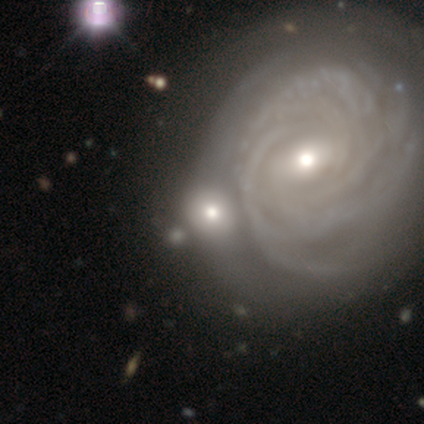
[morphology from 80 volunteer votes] Smooth or featured? 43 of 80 (54%) said featured or disk. Edge-on disk? 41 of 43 (95%) said no. Bar? 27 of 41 (66%) said no. Spiral arms? 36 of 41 (88%) said yes. Spiral winding? 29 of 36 (81%) said tight. Spiral arm count? 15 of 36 (42%) said can't tell. Bulge size? 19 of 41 (46%) said moderate. Merging? 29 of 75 (39%) said merger.